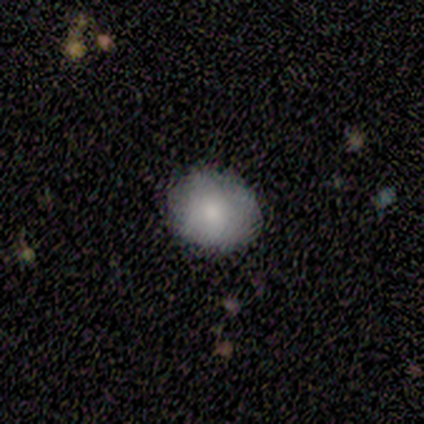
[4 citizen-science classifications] Smooth or featured? 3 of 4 (75%) said smooth. How rounded? 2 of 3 (67%) said round. Merging? 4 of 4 (100%) said none.